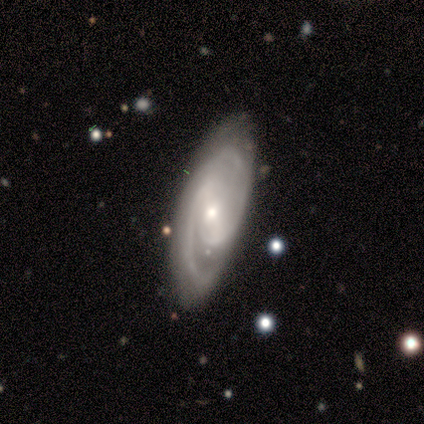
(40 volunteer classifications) This is likely a featured or disk galaxy (78%). It is clearly not viewed edge-on (90%). Bar: possibly weak (54%). Spiral arm pattern: clearly yes (100%). Spiral arm count: likely 2 (64%). Spiral winding: possibly medium (50%). Central bulge: likely small (68%). Merging: likely none (74%).